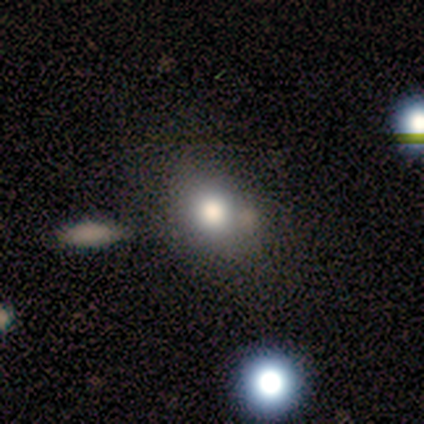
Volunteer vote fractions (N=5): This appears to be a smooth galaxy with no disk features (100%) that is round (80%). Merging: none (60%).